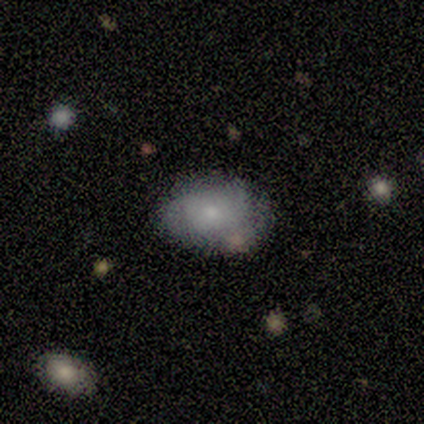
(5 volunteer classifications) Q: Smooth or featured?
A: smooth (100%)
Q: How rounded?
A: in between (100%)
Q: Merging?
A: none (80%); runner-up: major disturbance (20%)